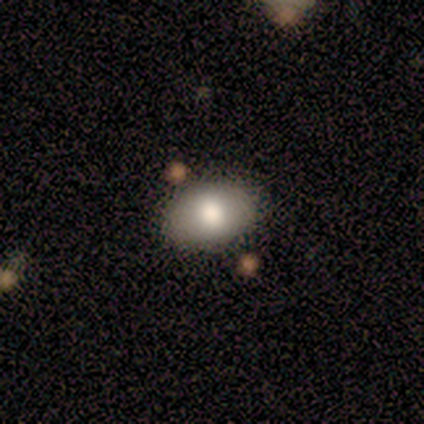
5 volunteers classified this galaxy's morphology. A smooth galaxy with no disk features (100%) that is in between round and cigar-shaped (100%). Merging: none (80%).